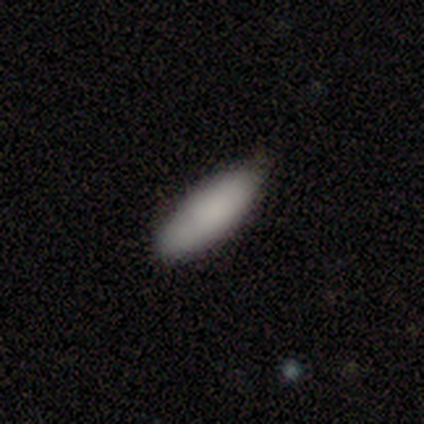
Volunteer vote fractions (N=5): This appears to be a smooth galaxy with no disk features (60%) that is in between round and cigar-shaped (67%). Merging: none (75%).